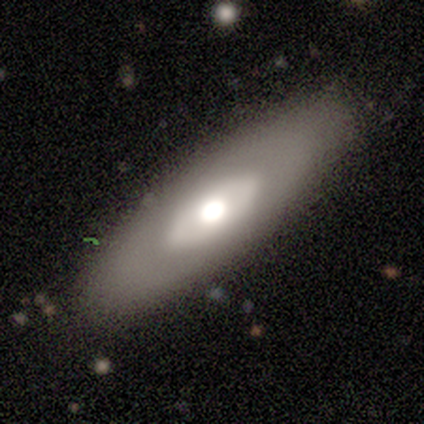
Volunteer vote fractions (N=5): Smooth or featured: smooth — 40% (tied with featured or disk — 40%)
How rounded: in between — 100%
Merging: none — 75% (minor disturbance — 25%)